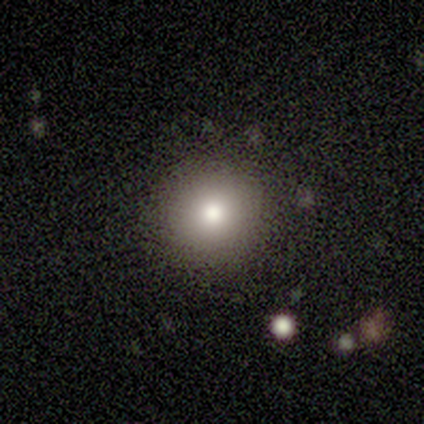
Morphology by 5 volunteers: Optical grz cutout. It shows a smooth galaxy with no disk features (100%) that is round (100%). Merging: none (100%).